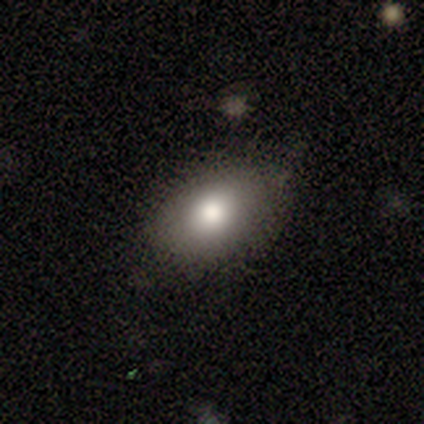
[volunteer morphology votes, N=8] This appears to be a smooth galaxy with no disk features (88%) that is in between round and cigar-shaped (86%). Merging: none (57%).